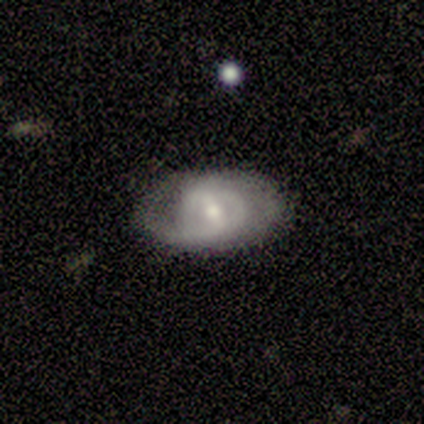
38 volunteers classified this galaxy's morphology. smooth-or-featured: featured or disk: 82% | smooth: 16% | star or artifact: 3%
  disk-edge-on: no: 100% | yes: 0%
    bar: weak: 45% | no: 35% | strong: 19%
    has-spiral-arms: yes: 68% | no: 32%
      spiral-winding: tight: 38% (tied) | medium: 38% (tied) | loose: 24%
      spiral-arm-count: 2: 67% | 1: 24% | can't tell: 10% | 3: 0% | 4: 0% | more than 4: 0%
    bulge-size: small: 61% | moderate: 35% | large: 3% | dominant: 0% | none: 0%
  merging: none: 81% | minor disturbance: 14% | major disturbance: 3% | merger: 3%